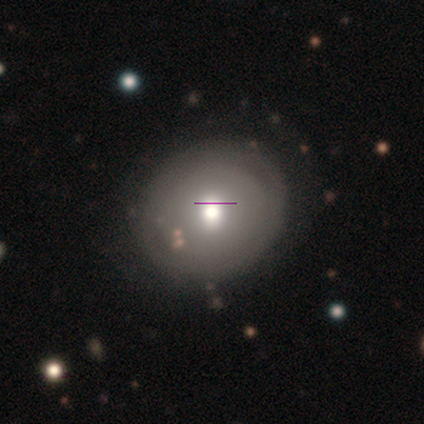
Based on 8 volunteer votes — Smooth or featured: smooth — 50% (featured or disk — 25%)
How rounded: round — 100%
Merging: none — 100%